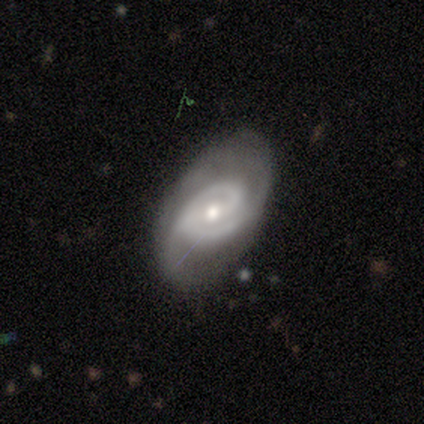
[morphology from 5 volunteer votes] Volunteers were most divided on "bar" (2-way tie): strong: 40%, no: 40%, weak: 20%. More confident: smooth or featured — featured or disk (100%); edge-on disk — no (100%); spiral arms — yes (100%); spiral winding — loose (60%); spiral arm count — 2 (60%); bulge size — moderate (60%); merging — none (60%).